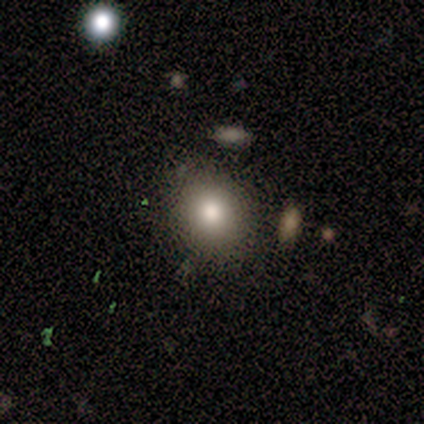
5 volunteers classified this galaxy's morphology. A smooth galaxy with no disk features (80%) that is round (50%, tied with in between).

Vote fractions:
- Smooth or featured? smooth: 80% / star or artifact: 20% / featured or disk: 0%
- How rounded? round: 50% (tied) / in between: 50% (tied) / cigar-shaped: 0%
- Merging? none: 100% / minor disturbance: 0% / major disturbance: 0% / merger: 0%